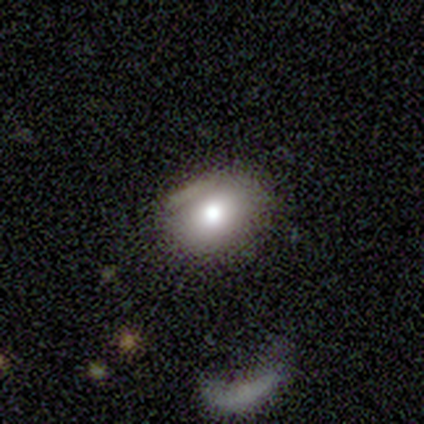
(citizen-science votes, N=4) Smooth or featured?
  - featured or disk: 50% *
  - smooth: 25%
  - star or artifact: 25%
Edge-on disk?
  - no: 100% *
  - yes: 0%
Bar?
  - no: 100% *
  - strong: 0%
  - weak: 0%
Spiral arms?
  - no: 100% *
  - yes: 0%
Bulge size?
  - moderate: 100% *
  - dominant: 0%
  - large: 0%
  - small: 0%
  - none: 0%
Merging?
  - none: 33% * (tied)
  - minor disturbance: 33% * (tied)
  - major disturbance: 33% * (tied)
  - merger: 0%